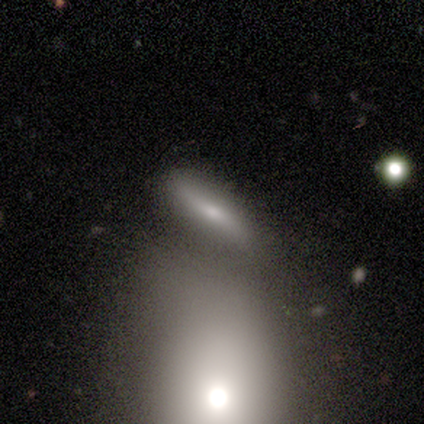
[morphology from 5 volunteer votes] A smooth galaxy with no disk features (100%) that is cigar-shaped (60%). Merging: none (40%).